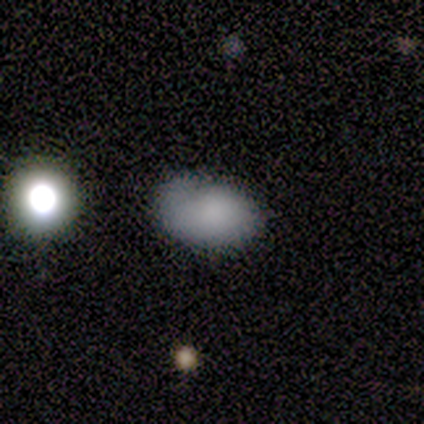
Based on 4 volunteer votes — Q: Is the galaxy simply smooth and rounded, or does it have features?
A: smooth — 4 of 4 (100%).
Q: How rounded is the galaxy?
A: in between — 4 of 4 (100%).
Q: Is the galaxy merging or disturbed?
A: none — 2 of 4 (50%, tied with minor disturbance).